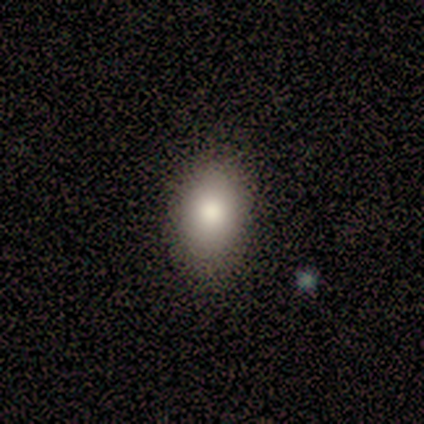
smooth 75%, star or artifact 25%, featured or disk 0%. Down the decision tree: how rounded — in between (100%); merging — none (100%).